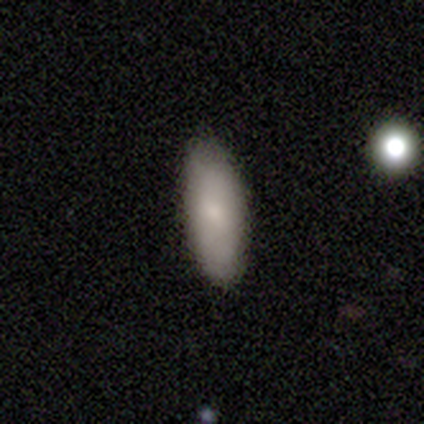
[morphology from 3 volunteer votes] Overall: smooth (100%). How rounded: in between (100%). Merging: none (100%).